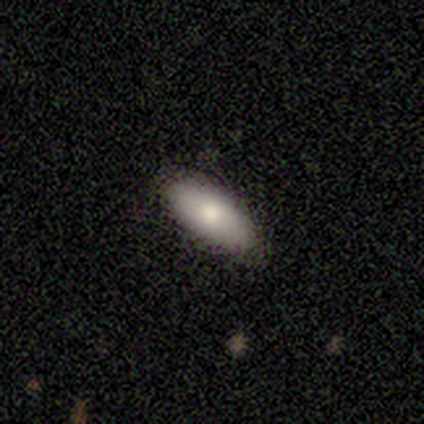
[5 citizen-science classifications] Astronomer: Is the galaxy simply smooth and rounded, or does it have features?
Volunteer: smooth — 80%.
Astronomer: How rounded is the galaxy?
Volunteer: in between — 75%.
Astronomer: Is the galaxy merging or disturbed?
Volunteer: none — 100%.